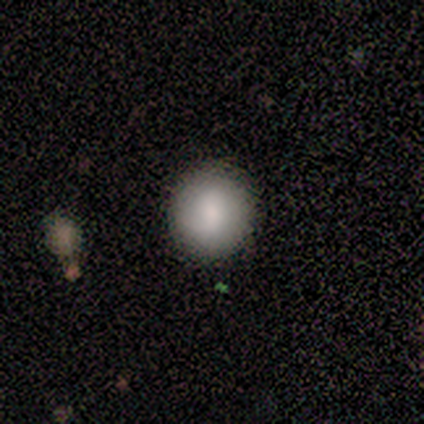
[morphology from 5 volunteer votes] Smooth or featured? 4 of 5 (80%) said smooth. How rounded? 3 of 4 (75%) said round. Merging? 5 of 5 (100%) said none.